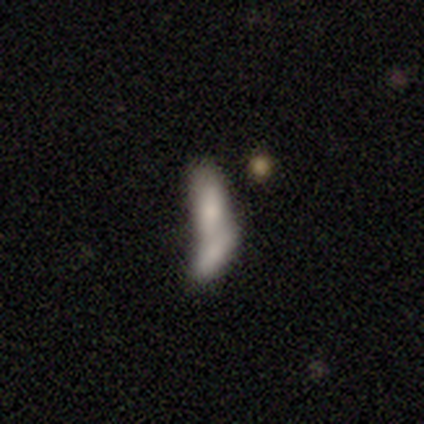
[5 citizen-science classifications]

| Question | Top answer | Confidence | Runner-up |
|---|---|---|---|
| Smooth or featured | smooth | 100% | — |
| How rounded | in between | 80% | cigar-shaped (20%) |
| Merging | merger | 80% | none (20%) |